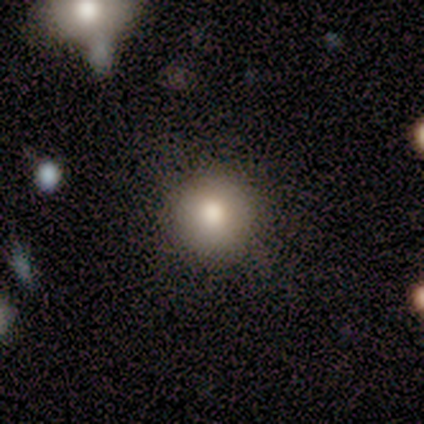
smooth-or-featured: smooth: 100% | featured or disk: 0% | star or artifact: 0%
  how-rounded: round: 100% | in between: 0% | cigar-shaped: 0%
  merging: none: 75% | minor disturbance: 25% | major disturbance: 0% | merger: 0%